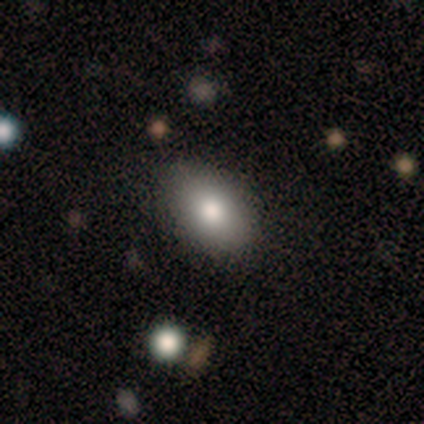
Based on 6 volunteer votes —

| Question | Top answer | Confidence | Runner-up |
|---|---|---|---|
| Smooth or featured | smooth | 100% | — |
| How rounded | in between | 100% | — |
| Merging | none | 100% | — |